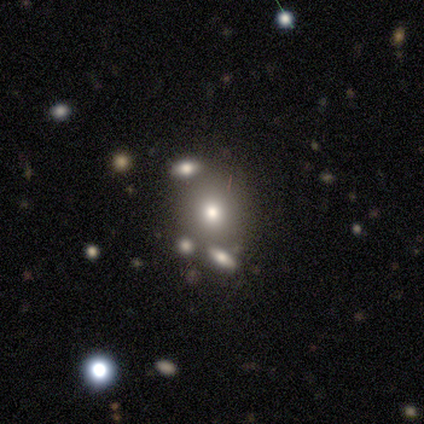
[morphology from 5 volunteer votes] Overall: smooth (80%). How rounded: in between (75%). Merging: minor disturbance (50%; none 25%).